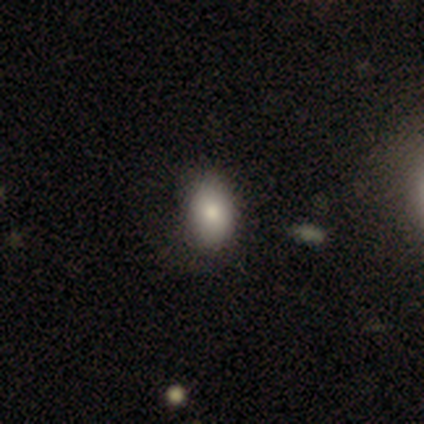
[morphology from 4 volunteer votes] Smooth or featured?
  - smooth: 100% *
  - featured or disk: 0%
  - star or artifact: 0%
How rounded?
  - in between: 100% *
  - round: 0%
  - cigar-shaped: 0%
Merging?
  - none: 50% *
  - minor disturbance: 25%
  - major disturbance: 25%
  - merger: 0%